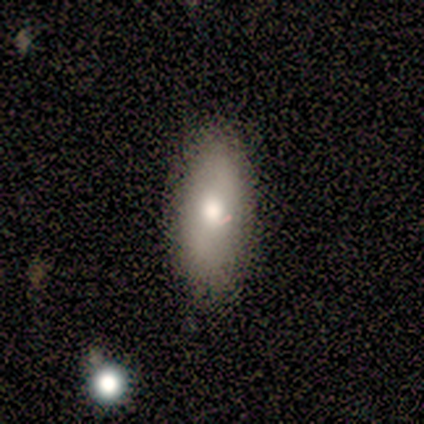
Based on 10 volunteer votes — smooth_or_featured: smooth (p=0.60) [alt: featured or disk p=0.30]
how_rounded: in between (p=1.00)
merging: none (p=0.89) [alt: minor disturbance p=0.11]